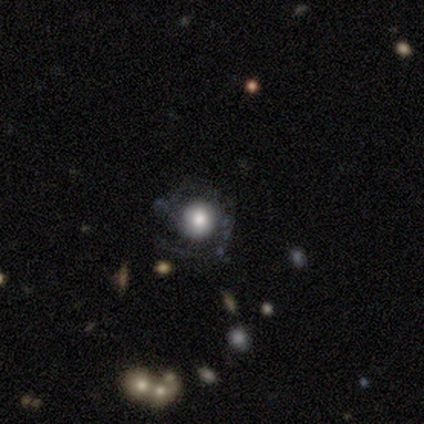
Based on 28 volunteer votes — A smooth galaxy with no disk features (36%, tied with featured or disk) that is round (90%).

Vote fractions:
- Smooth or featured? smooth: 36% (tied) / featured or disk: 36% (tied) / star or artifact: 29%
- How rounded? round: 90% / in between: 10% / cigar-shaped: 0%
- Merging? none: 45% / major disturbance: 25% / minor disturbance: 20% / merger: 10%